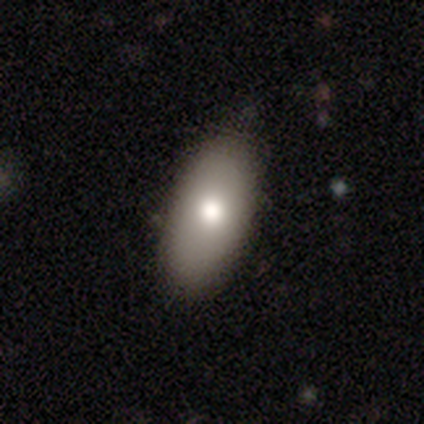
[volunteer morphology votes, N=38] Volunteers were most divided on "merging": none: 84%, minor disturbance: 16%, major disturbance: 0%, merger: 0%. More confident: how rounded — in between (97%); smooth or featured — smooth (87%).